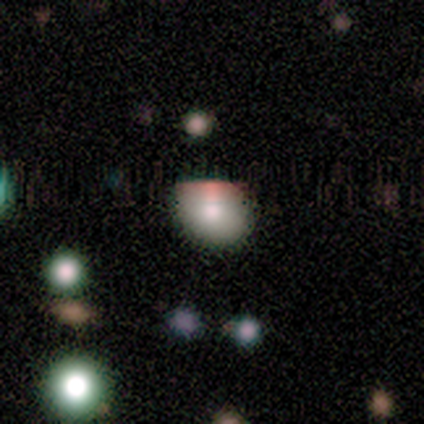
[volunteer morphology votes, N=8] smooth 38% (tied), star or artifact 38% (tied), featured or disk 25%. Down the decision tree: how rounded — round (67%); merging — none (100%).